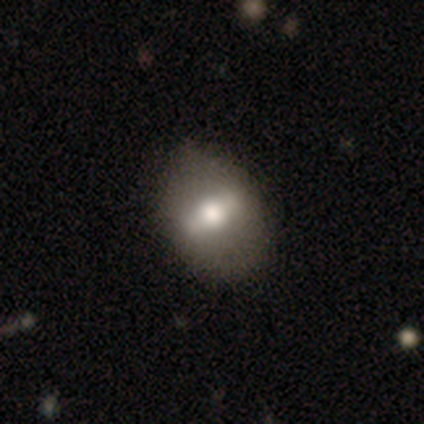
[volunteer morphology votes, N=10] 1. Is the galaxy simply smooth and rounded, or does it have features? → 70% smooth, 30% featured or disk, 0% star or artifact.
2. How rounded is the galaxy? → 100% in between, 0% round, 0% cigar-shaped.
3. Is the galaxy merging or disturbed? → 50% none, 20% minor disturbance, 20% major disturbance, 10% merger.